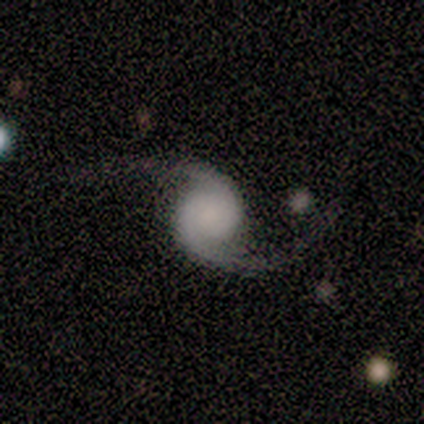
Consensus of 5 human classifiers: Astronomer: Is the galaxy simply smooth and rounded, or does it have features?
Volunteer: featured or disk — 100%.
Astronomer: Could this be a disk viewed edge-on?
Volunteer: no — 100%.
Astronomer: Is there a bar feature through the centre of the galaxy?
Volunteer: no — 60% (runner-up: weak, 40%).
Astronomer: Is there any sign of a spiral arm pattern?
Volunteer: yes — 100%.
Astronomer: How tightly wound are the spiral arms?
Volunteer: loose — 80%.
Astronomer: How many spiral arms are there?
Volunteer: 2 — 100%.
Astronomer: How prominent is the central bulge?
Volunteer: large — 40%, tied with none at 40%.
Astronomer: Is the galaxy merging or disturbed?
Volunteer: none — 100%.